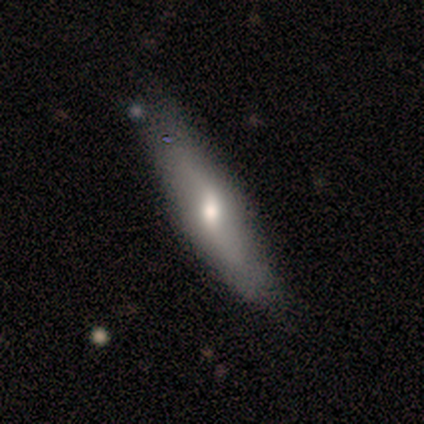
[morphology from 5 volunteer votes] This is likely a featured or disk galaxy (60%). It is likely not viewed edge-on (67%). Bar: possibly weak (50%, tied with no). Spiral arm pattern: possibly yes (50%, tied with no). Spiral arm count: clearly 2 (100%). Spiral winding: clearly loose (100%). Central bulge: clearly small (100%). Merging: clearly none (80%).